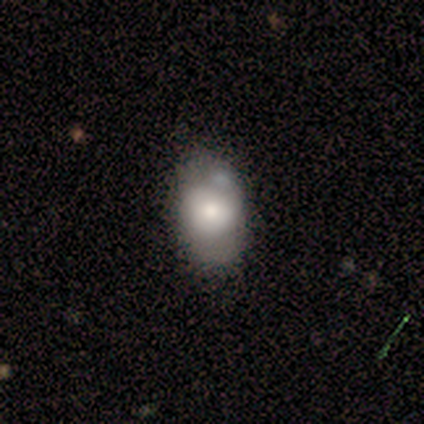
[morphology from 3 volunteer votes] Overall: smooth (100%). How rounded: round (67%; in between 33%). Merging: none (67%; minor disturbance 33%).